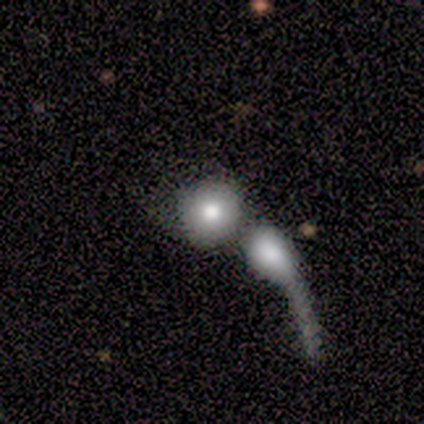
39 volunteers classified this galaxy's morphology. A smooth galaxy with no disk features (90%) that is round (86%). Merging: merger (79%).